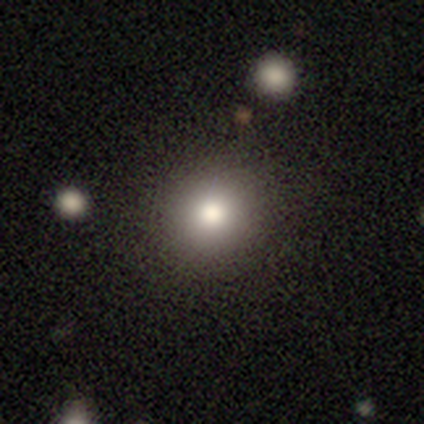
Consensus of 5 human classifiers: Smooth or featured: smooth — 80% (star or artifact — 20%)
How rounded: round — 75% (in between — 25%)
Merging: none — 75% (minor disturbance — 25%)